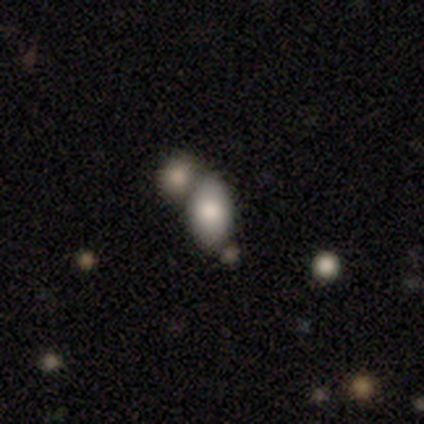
Smooth or featured? 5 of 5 (100%) said smooth. How rounded? 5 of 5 (100%) said in between. Merging? 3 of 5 (60%) said none.